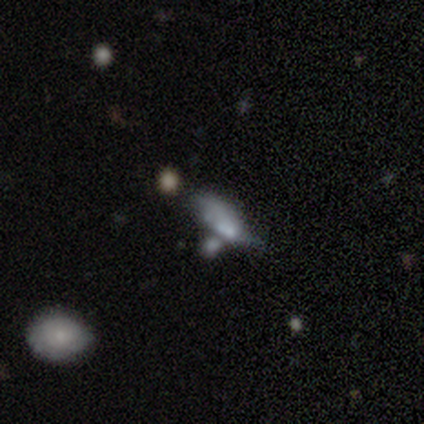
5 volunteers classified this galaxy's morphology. A smooth galaxy with no disk features (40%, tied with featured or disk) that is in between round and cigar-shaped (100%). Merging: merger (100%).